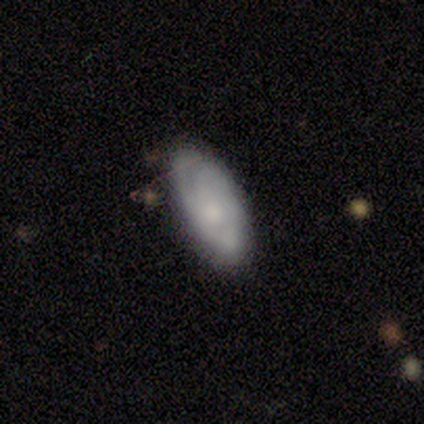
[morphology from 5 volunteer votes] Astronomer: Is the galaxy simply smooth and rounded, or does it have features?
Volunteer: smooth — 60% (runner-up: featured or disk, 40%).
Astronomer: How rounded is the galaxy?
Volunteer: in between — 100%.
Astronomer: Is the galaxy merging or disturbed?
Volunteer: none — 100%.